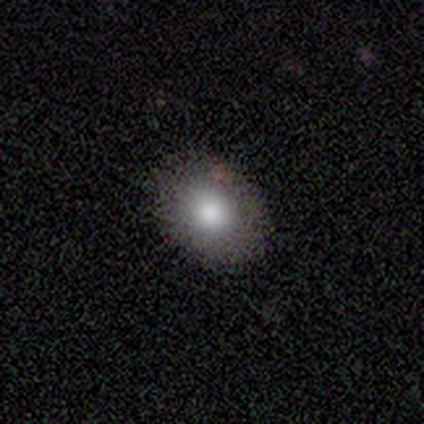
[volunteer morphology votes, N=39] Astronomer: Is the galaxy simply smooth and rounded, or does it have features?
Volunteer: smooth — 74%.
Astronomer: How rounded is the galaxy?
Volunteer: in between — 72%.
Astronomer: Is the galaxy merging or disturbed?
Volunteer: none — 100%.